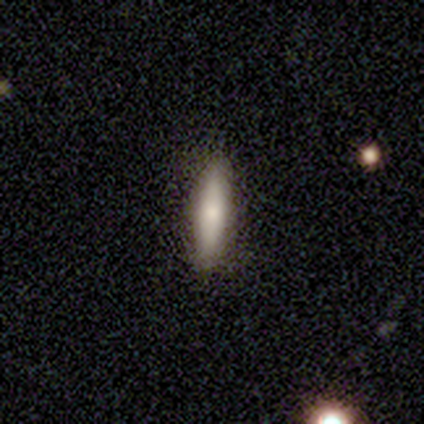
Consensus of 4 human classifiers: Volunteers were most divided on "how rounded": cigar-shaped: 67%, in between: 33%, round: 0%. More confident: smooth or featured — smooth (75%); merging — none (75%).